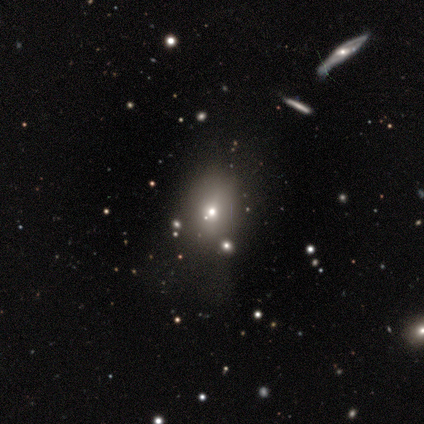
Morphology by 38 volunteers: type=smooth (53%); roundness=in between (55%); merging=none (62%).